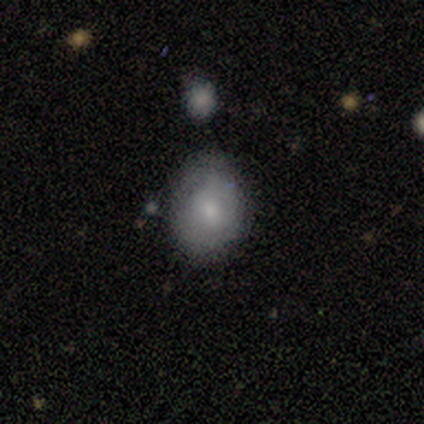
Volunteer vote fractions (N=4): This is likely a smooth galaxy (75%). How rounded: likely round (67%). Merging: likely none (75%).